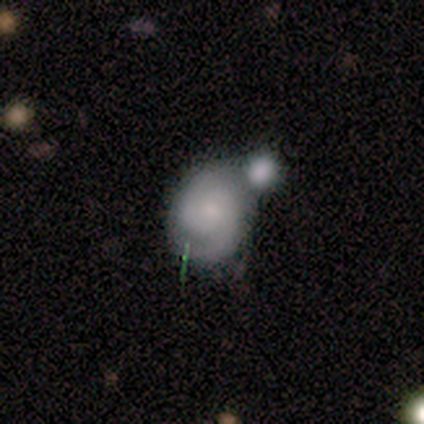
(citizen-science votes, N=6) Smooth or featured? featured or disk (67%)
Edge-on disk? no (75%)
Bar? no (100%)
Spiral arms? yes (100%)
Spiral winding? medium (67%)
Spiral arm count? 2 (100%)
Bulge size? small (67%)
Merging? merger (50%)